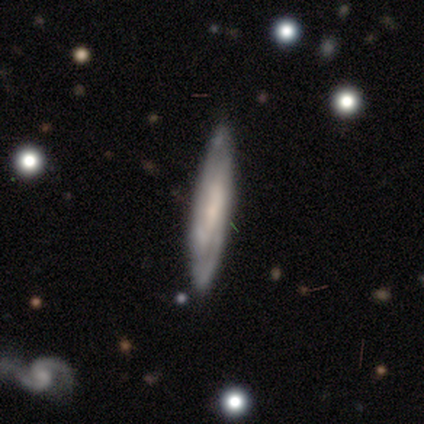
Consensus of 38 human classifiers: smooth-or-featured: featured or disk: 66% | smooth: 29% | star or artifact: 5%
  disk-edge-on: no: 56% | yes: 44%
    bar: weak: 57% | no: 29% | strong: 14%
    has-spiral-arms: yes: 86% | no: 14%
      spiral-winding: tight: 58% | medium: 33% | loose: 8%
      spiral-arm-count: can't tell: 58% | 2: 42% | 1: 0% | 3: 0% | 4: 0% | more than 4: 0%
    bulge-size: small: 57% | moderate: 29% | none: 14% | dominant: 0% | large: 0%
  merging: none: 78% | minor disturbance: 19% | major disturbance: 3% | merger: 0%